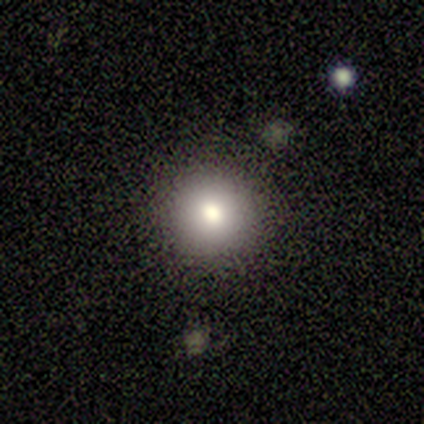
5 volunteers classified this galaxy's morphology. type=smooth (80%); roundness=round (100%); merging=none (100%).